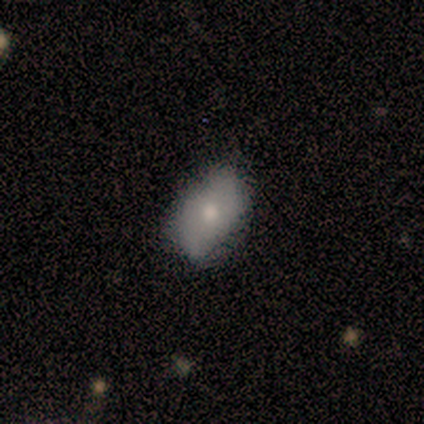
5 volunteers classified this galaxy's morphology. Overall: smooth (80%). How rounded: in between (100%). Merging: none (75%).